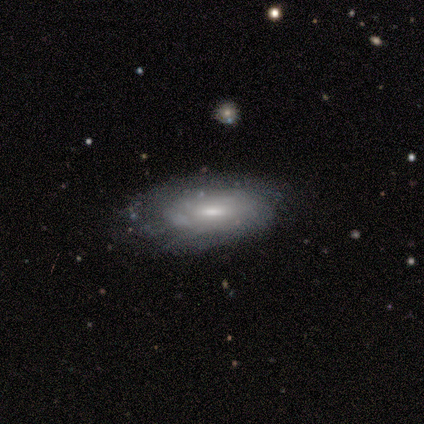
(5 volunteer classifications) This appears to be a featured or disk galaxy (100%) with a weak bar (75%), medium (67%) spiral arms (75%) and a small central bulge (50%). Merging: none (40%, tied with minor disturbance).